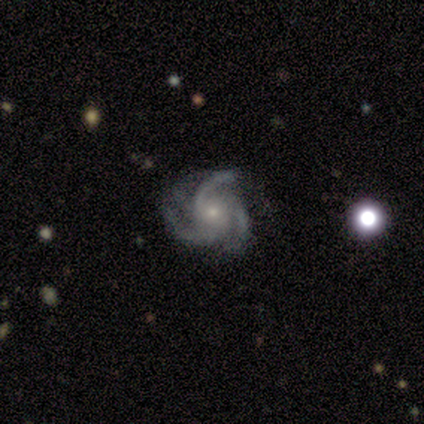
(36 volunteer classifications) Q: Smooth or featured?
A: featured or disk (94%); runner-up: smooth (3%)
Q: Edge-on disk?
A: no (97%); runner-up: yes (3%)
Q: Bar?
A: no (76%); runner-up: weak (18%)
Q: Spiral arms?
A: yes (97%); runner-up: no (3%)
Q: Spiral winding?
A: medium (69%); runner-up: tight (22%)
Q: Spiral arm count?
A: 3 (81%); runner-up: 4 (16%)
Q: Bulge size?
A: small (67%); runner-up: moderate (27%)
Q: Merging?
A: none (60%); runner-up: minor disturbance (31%)